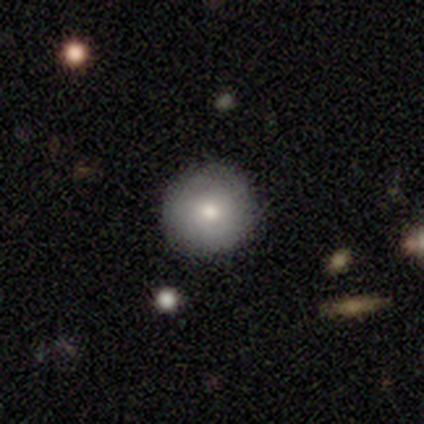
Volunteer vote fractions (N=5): smooth_or_featured: smooth (p=0.60) [alt: featured or disk p=0.40]
how_rounded: round (p=1.00)
merging: none (p=1.00)